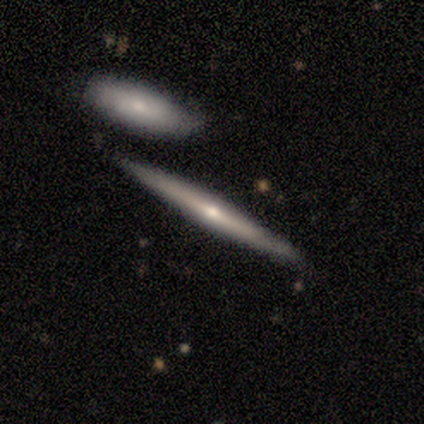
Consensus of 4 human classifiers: Smooth or featured? 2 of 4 (50%, tied with featured or disk) said smooth. How rounded? 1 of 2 (50%, tied with cigar-shaped) said round. Merging? 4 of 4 (100%) said none.